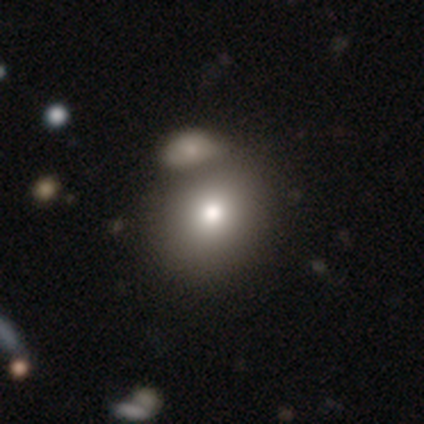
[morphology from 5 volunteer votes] A smooth galaxy with no disk features (80%) that is round (50%, tied with in between).

Vote fractions:
- Smooth or featured? smooth: 80% / featured or disk: 20% / star or artifact: 0%
- How rounded? round: 50% (tied) / in between: 50% (tied) / cigar-shaped: 0%
- Merging? merger: 60% / none: 40% / minor disturbance: 0% / major disturbance: 0%